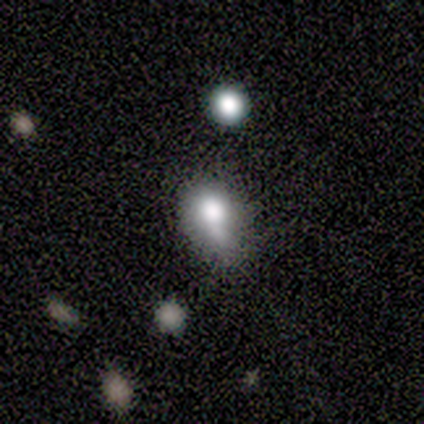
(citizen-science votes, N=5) smooth_or_featured: smooth (p=0.80) [alt: star or artifact p=0.20]
how_rounded: in between (p=0.75) [alt: round p=0.25]
merging: none (p=0.50) [alt: minor disturbance p=0.25]